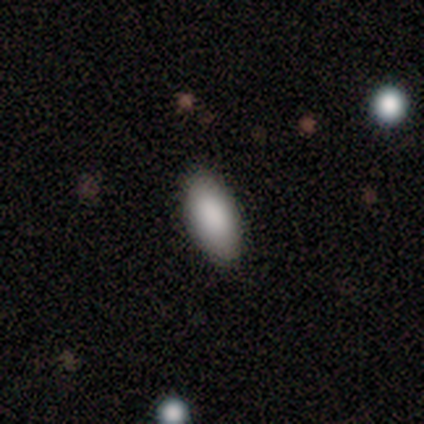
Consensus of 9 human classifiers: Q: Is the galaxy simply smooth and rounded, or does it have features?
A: smooth — 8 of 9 (89%).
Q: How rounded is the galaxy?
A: in between — 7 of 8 (88%).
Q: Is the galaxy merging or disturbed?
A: none — 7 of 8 (88%).